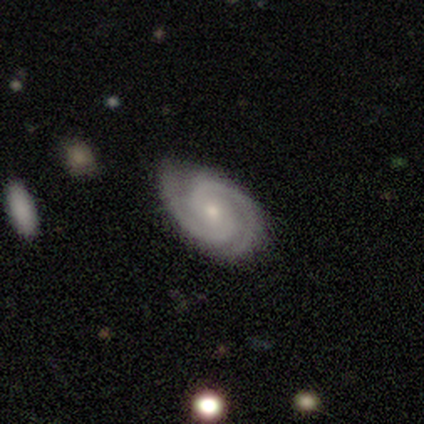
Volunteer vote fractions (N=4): Smooth or featured? 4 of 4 (100%) said featured or disk. Edge-on disk? 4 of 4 (100%) said no. Bar? 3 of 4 (75%) said no. Spiral arms? 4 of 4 (100%) said yes. Spiral winding? 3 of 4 (75%) said tight. Spiral arm count? 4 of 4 (100%) said 2. Bulge size? 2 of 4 (50%) said small. Merging? 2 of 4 (50%) said none.